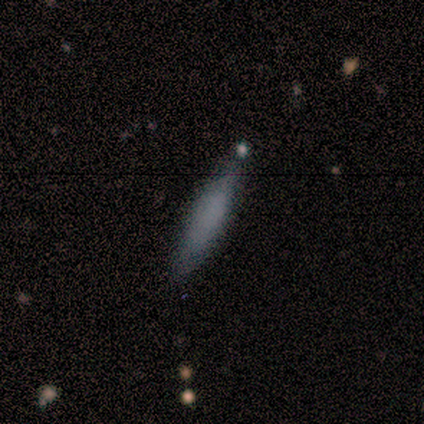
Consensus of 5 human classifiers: A smooth galaxy with no disk features (60%) that is cigar-shaped (67%). Merging: none (100%).